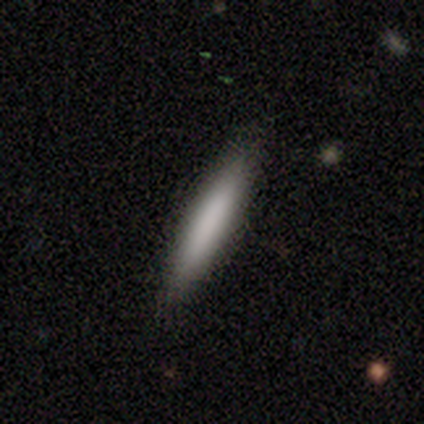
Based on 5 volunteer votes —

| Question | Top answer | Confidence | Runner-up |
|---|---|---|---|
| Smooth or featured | smooth | 80% | featured or disk (20%) |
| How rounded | cigar-shaped | 100% | — |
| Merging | minor disturbance | 60% | none (40%) |